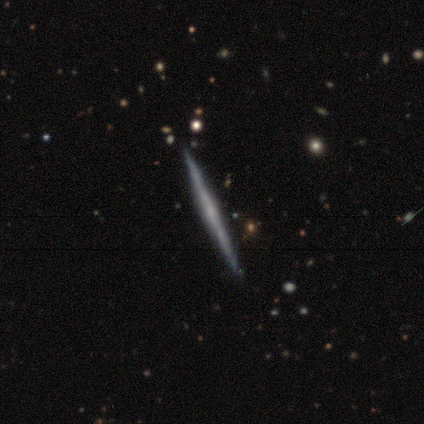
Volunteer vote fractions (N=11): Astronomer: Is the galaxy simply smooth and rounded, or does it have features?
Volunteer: featured or disk — 73%.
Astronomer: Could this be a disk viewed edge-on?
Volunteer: yes — 100%.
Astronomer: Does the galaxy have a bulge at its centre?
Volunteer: none — 50%, tied with rounded at 50%.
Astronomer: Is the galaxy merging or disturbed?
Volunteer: none — 91%.